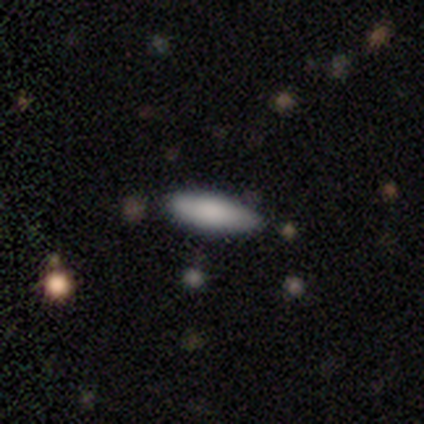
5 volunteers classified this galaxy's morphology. This is clearly a smooth galaxy (100%). How rounded: likely cigar-shaped (60%). Merging: clearly none (80%).